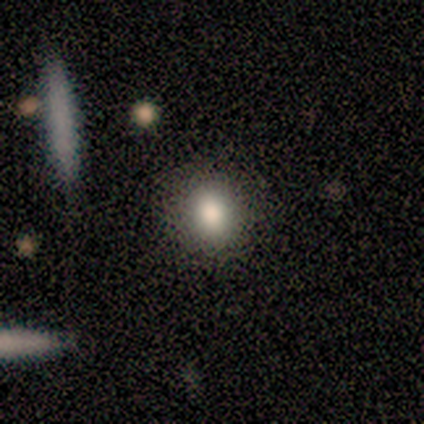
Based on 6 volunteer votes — Morphology: type=smooth (100%); roundness=round (67%); merging=none (100%).